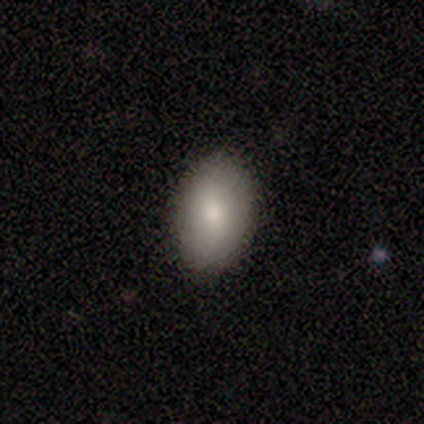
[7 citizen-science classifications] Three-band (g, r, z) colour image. It shows a smooth galaxy with no disk features (71%) that is in between round and cigar-shaped (100%). Merging: none (100%).